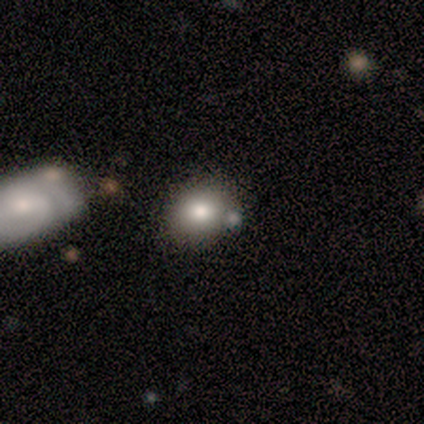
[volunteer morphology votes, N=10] This is likely a smooth galaxy (70%). How rounded: likely round (71%). Merging: possibly none (50%).